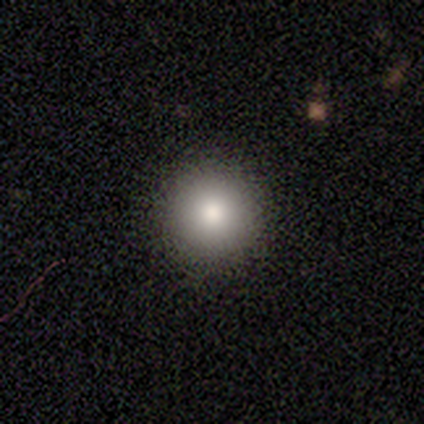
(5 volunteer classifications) Overall: star or artifact (60%; smooth 40%).